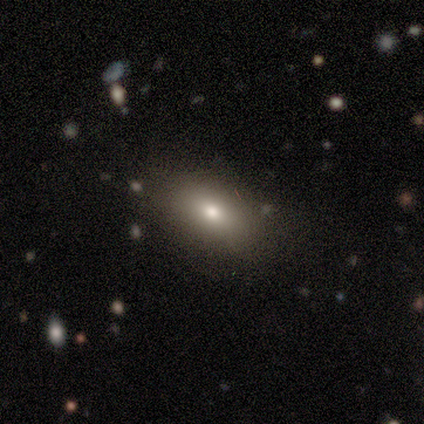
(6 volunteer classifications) smooth-or-featured: smooth: 100% | featured or disk: 0% | star or artifact: 0%
  how-rounded: in between: 83% | round: 17% | cigar-shaped: 0%
  merging: none: 83% | major disturbance: 17% | minor disturbance: 0% | merger: 0%